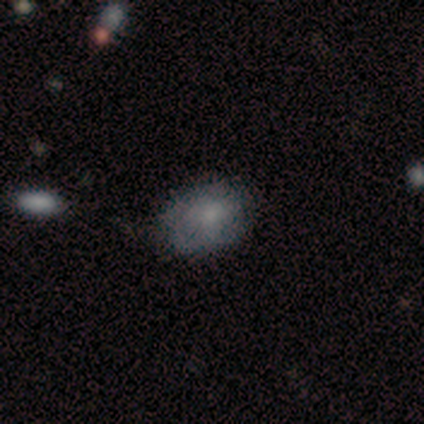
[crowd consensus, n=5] Smooth or featured? featured or disk (60%)
Edge-on disk? no (100%)
Bar? no (100%)
Spiral arms? no (67%)
Bulge size? moderate (33%, tied with small and none)
Merging? none (80%)